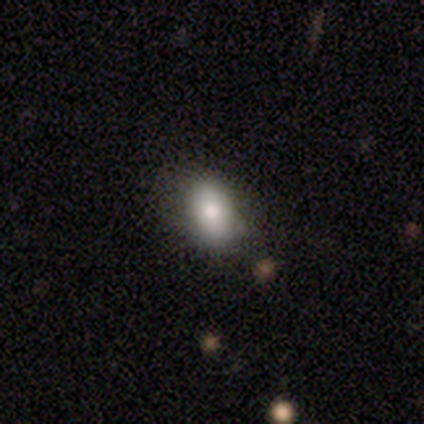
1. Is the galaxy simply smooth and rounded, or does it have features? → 85% smooth, 8% featured or disk, 8% star or artifact.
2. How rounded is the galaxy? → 85% in between, 15% round, 0% cigar-shaped.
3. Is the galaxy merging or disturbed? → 78% none, 17% minor disturbance, 6% merger, 0% major disturbance.